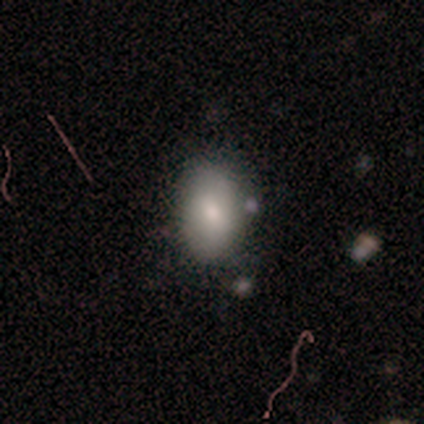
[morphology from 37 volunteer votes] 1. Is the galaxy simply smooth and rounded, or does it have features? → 81% smooth, 11% featured or disk, 8% star or artifact.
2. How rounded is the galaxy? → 100% in between, 0% round, 0% cigar-shaped.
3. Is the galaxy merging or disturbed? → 91% none, 3% minor disturbance, 3% major disturbance, 3% merger.